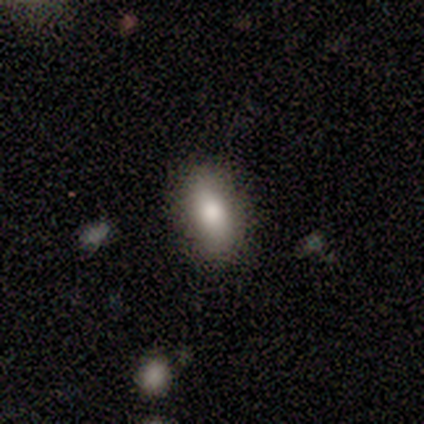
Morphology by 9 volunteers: Smooth or featured: smooth — 89% (featured or disk — 11%)
How rounded: in between — 75% (round — 12%)
Merging: none — 89% (minor disturbance — 11%)